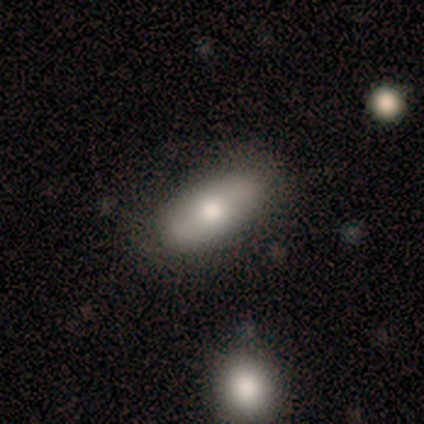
Volunteers were most divided on "smooth or featured": smooth: 60%, featured or disk: 40%, star or artifact: 0%. More confident: merging — none (80%); how rounded — in between (67%).